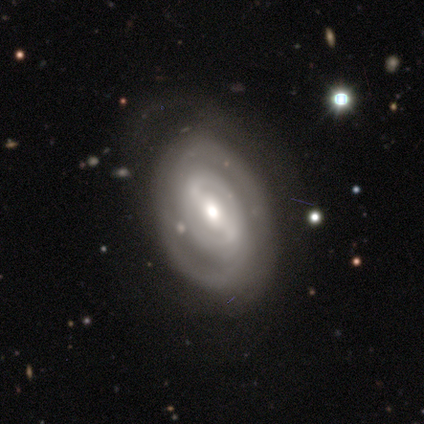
This appears to be a featured or disk galaxy (100%) with a strong bar (60%), no spiral arms (60%) and a moderate central bulge (60%). Merging: none (80%).